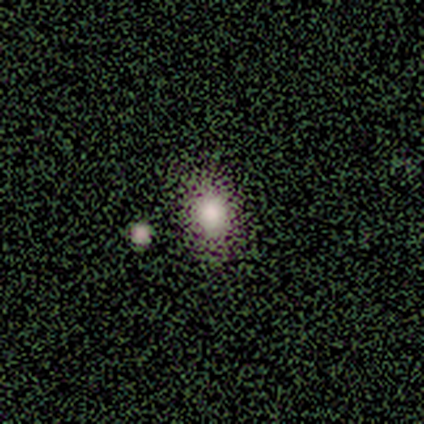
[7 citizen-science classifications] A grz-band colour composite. It shows a smooth galaxy with no disk features (57%) that is in between round and cigar-shaped (75%). Merging: none (100%).